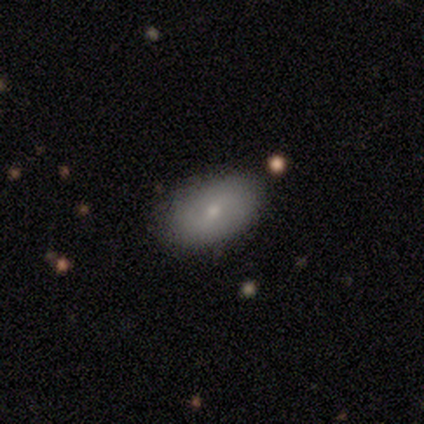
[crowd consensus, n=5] A smooth galaxy with no disk features (100%) that is in between round and cigar-shaped (80%). Merging: none (100%).